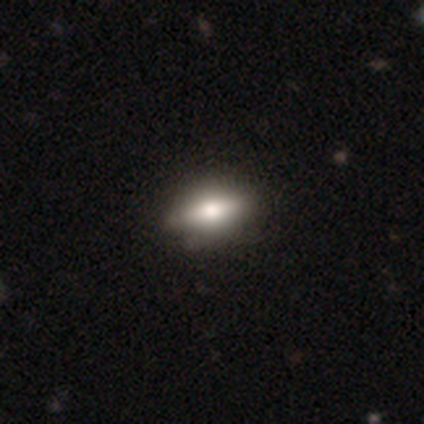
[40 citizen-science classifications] Q: Smooth or featured?
A: smooth (52%); runner-up: featured or disk (32%)
Q: How rounded?
A: in between (90%); runner-up: round (5%)
Q: Merging?
A: none (65%); runner-up: minor disturbance (6%)